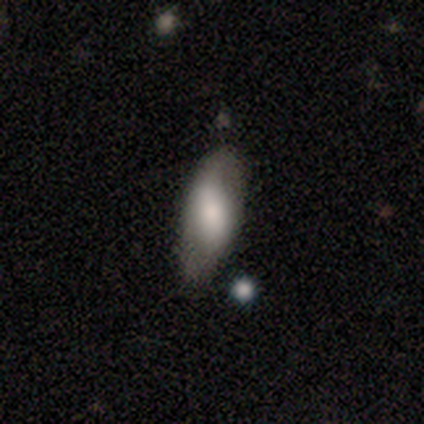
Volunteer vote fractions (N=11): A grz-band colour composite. It shows a smooth galaxy with no disk features (73%) that is in between round and cigar-shaped (75%). Merging: none (45%, tied with minor disturbance).